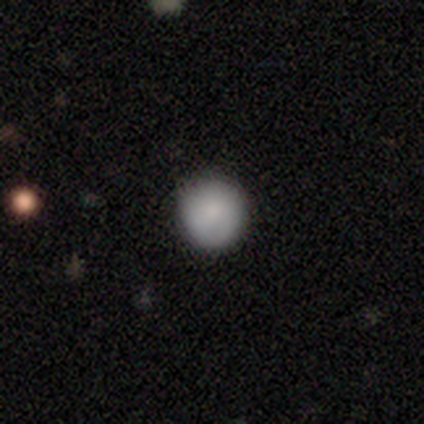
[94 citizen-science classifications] A smooth galaxy with no disk features (84%) that is round (99%).

Vote fractions:
- Smooth or featured? smooth: 84% / star or artifact: 9% / featured or disk: 7%
- How rounded? round: 99% / cigar-shaped: 1% / in between: 0%
- Merging? none: 86% / minor disturbance: 12% / major disturbance: 1% / merger: 1%